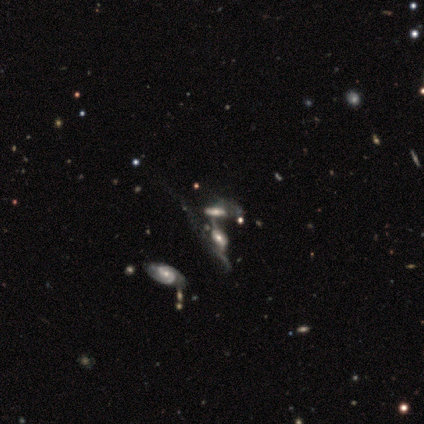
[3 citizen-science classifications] featured or disk 67%, smooth 33%, star or artifact 0%. Down the decision tree: edge-on disk — no (100%); bar — weak (50%, tied with no); spiral arms — yes (100%); spiral arm count — 2 (50%, tied with can't tell); spiral winding — tight (50%, tied with medium); bulge size — small (100%); merging — none (33%, tied with major disturbance and merger).